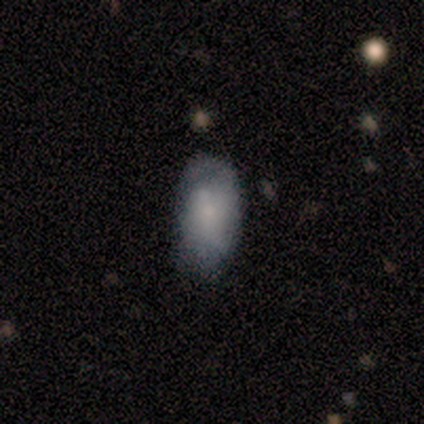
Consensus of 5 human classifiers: Smooth or featured?
  - smooth: 60% *
  - featured or disk: 40%
  - star or artifact: 0%
How rounded?
  - in between: 100% *
  - round: 0%
  - cigar-shaped: 0%
Merging?
  - minor disturbance: 60% *
  - none: 40%
  - major disturbance: 0%
  - merger: 0%